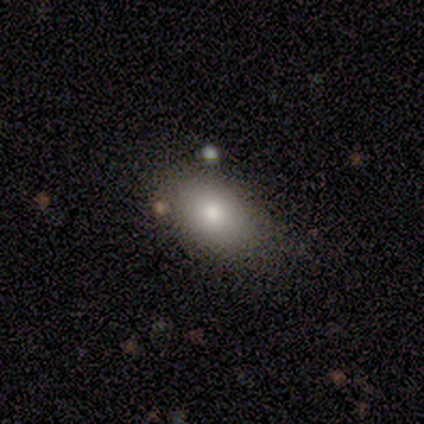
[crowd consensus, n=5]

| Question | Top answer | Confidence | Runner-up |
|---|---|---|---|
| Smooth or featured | smooth | 80% | featured or disk (20%) |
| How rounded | in between | 75% | round (25%) |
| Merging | minor disturbance | 60% | none (20%) |